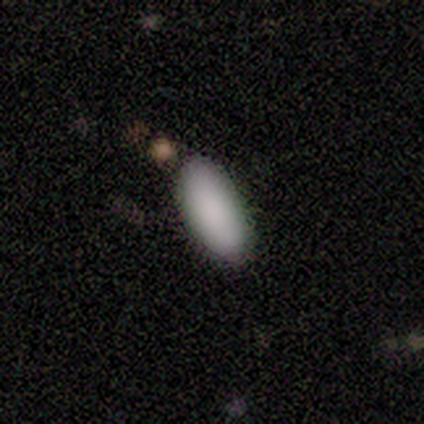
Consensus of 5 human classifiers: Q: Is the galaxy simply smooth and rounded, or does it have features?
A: smooth — 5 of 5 (100%).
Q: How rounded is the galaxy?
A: in between — 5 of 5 (100%).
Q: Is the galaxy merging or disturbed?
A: none — 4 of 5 (80%).